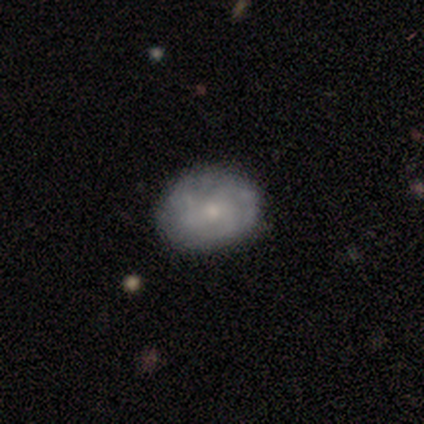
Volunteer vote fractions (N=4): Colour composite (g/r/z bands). It shows a featured or disk galaxy (75%) with no bar (100%), no spiral arms (67%) and a small central bulge (67%). Merging: none (75%).